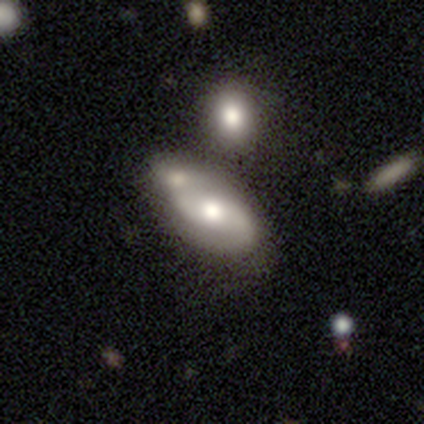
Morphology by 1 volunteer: This appears to be a featured or disk galaxy (100%) with a weak bar (100%), medium (100%) spiral arms (100%) and no central bulge (100%). Merging: none (100%).